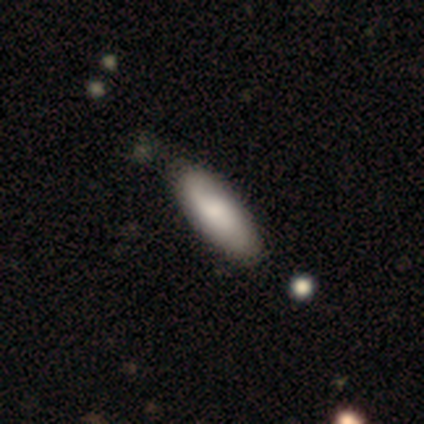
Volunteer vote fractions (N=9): Q: Smooth or featured?
A: smooth (44%); tied with: featured or disk (44%)
Q: How rounded?
A: in between (50%); tied with: cigar-shaped (50%)
Q: Merging?
A: none (62%); runner-up: minor disturbance (38%)